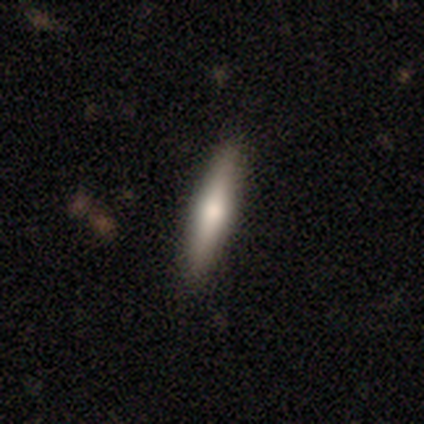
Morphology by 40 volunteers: Smooth or featured? smooth (60%)
How rounded? cigar-shaped (75%)
Merging? none (90%)